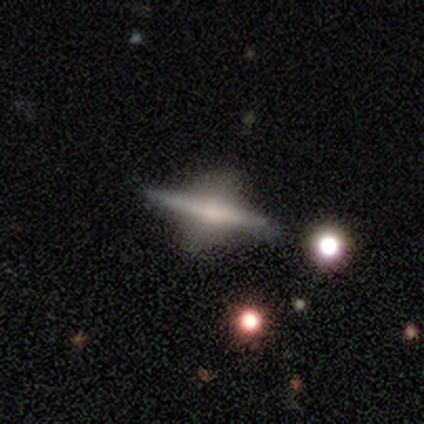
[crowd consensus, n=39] Q: Smooth or featured?
A: featured or disk (82%); runner-up: smooth (10%)
Q: Edge-on disk?
A: yes (97%); runner-up: no (3%)
Q: Edge-on bulge?
A: rounded (77%); runner-up: boxy (13%)
Q: Merging?
A: none (67%); runner-up: minor disturbance (17%)